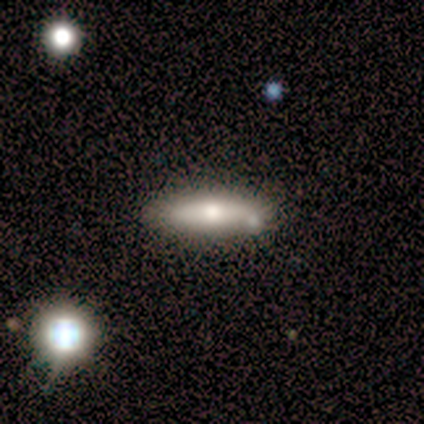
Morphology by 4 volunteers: Overall: smooth (75%). How rounded: round (33%, tied with in between and cigar-shaped). Merging: none (100%).